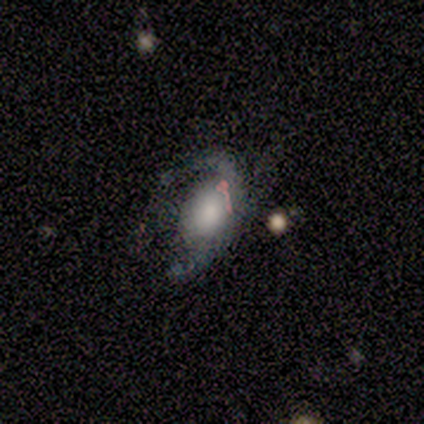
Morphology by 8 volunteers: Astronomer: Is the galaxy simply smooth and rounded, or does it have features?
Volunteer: smooth — 50% (runner-up: featured or disk, 38%).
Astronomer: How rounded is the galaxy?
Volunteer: in between — 100%.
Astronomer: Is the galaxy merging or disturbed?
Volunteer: none — 29%, tied with minor disturbance and major disturbance at 29%.